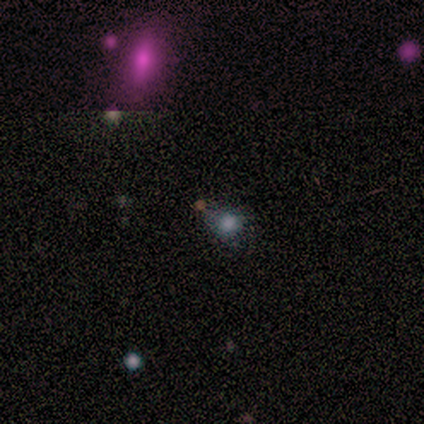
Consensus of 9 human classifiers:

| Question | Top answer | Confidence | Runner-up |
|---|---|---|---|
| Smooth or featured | smooth | 78% | star or artifact (22%) |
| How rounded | round | 57% | in between (43%) |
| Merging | none | 57% | minor disturbance (43%) |